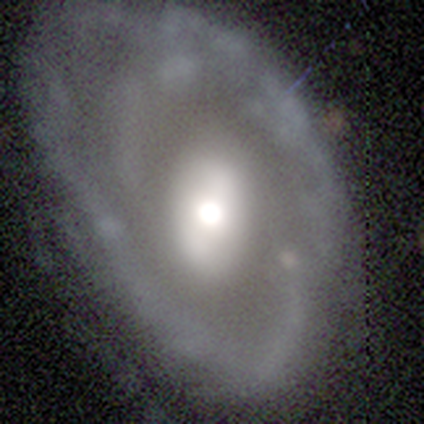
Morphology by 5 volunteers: Smooth or featured?
  - featured or disk: 80% *
  - smooth: 20%
  - star or artifact: 0%
Edge-on disk?
  - no: 100% *
  - yes: 0%
Bar?
  - no: 50% *
  - strong: 25%
  - weak: 25%
Spiral arms?
  - yes: 100% *
  - no: 0%
Spiral winding?
  - tight: 50% *
  - medium: 25%
  - loose: 25%
Spiral arm count?
  - 2: 50% * (tied)
  - can't tell: 50% * (tied)
  - 1: 0%
  - 3: 0%
  - 4: 0%
  - more than 4: 0%
Bulge size?
  - moderate: 75% *
  - dominant: 25%
  - large: 0%
  - small: 0%
  - none: 0%
Merging?
  - none: 60% *
  - major disturbance: 40%
  - minor disturbance: 0%
  - merger: 0%